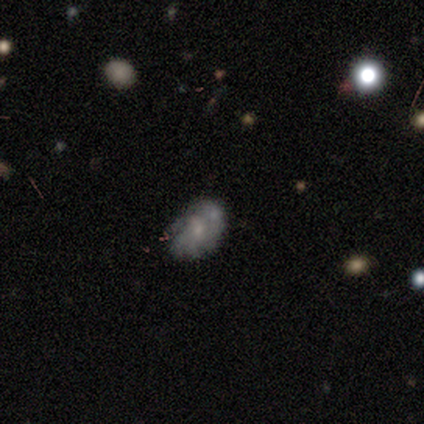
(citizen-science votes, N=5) Smooth or featured: smooth — 80% (featured or disk — 20%)
How rounded: in between — 100%
Merging: none — 40% (tied with merger — 40%)